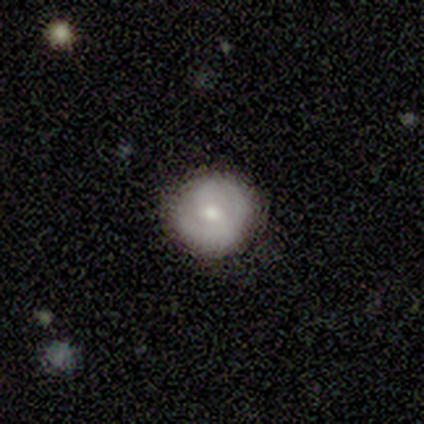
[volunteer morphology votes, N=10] smooth 50%, featured or disk 40%, star or artifact 10%. Down the decision tree: how rounded — round (100%); merging — none (67%).